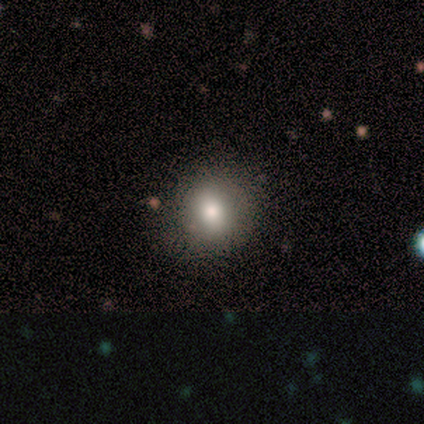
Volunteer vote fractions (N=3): Smooth or featured?
  - smooth: 33% * (tied)
  - featured or disk: 33% * (tied)
  - star or artifact: 33% * (tied)
How rounded?
  - round: 100% *
  - in between: 0%
  - cigar-shaped: 0%
Merging?
  - none: 100% *
  - minor disturbance: 0%
  - major disturbance: 0%
  - merger: 0%